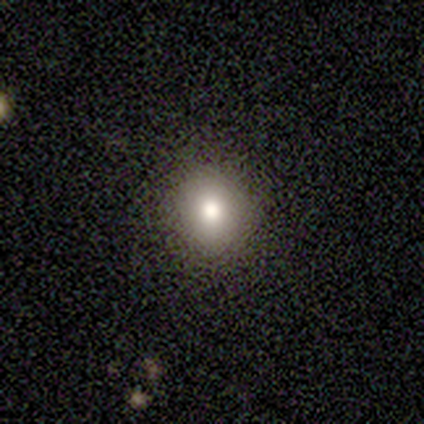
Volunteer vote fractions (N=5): smooth 60%, featured or disk 20%, star or artifact 20%. Down the decision tree: how rounded — round (100%); merging — none (100%).